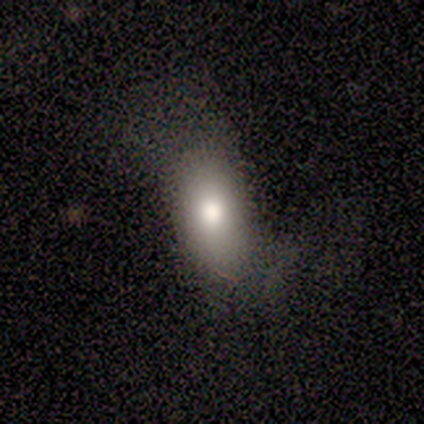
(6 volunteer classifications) This appears to be a smooth galaxy with no disk features (100%) that is in between round and cigar-shaped (100%). Merging: none (67%).